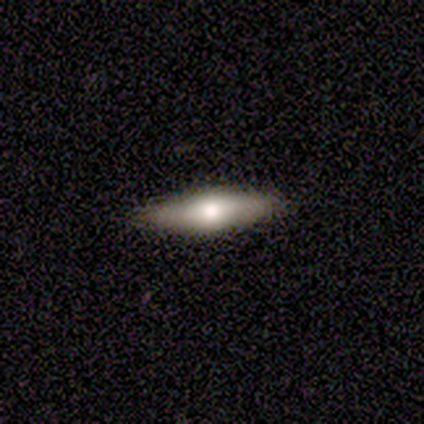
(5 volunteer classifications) Smooth or featured? 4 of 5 (80%) said smooth. How rounded? 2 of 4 (50%, tied with cigar-shaped) said in between. Merging? 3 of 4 (75%) said none.